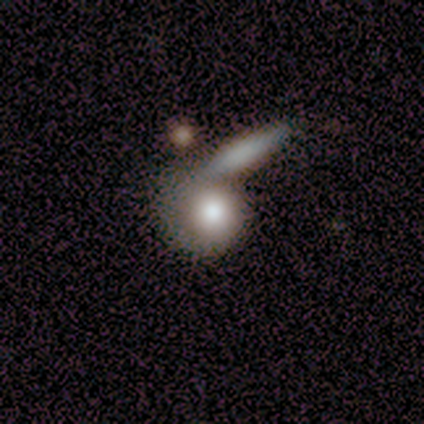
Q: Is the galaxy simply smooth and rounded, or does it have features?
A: smooth — 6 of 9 (67%).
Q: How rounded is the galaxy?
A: round — 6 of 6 (100%).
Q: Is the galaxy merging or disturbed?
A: minor disturbance — 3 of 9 (33%, tied with merger).